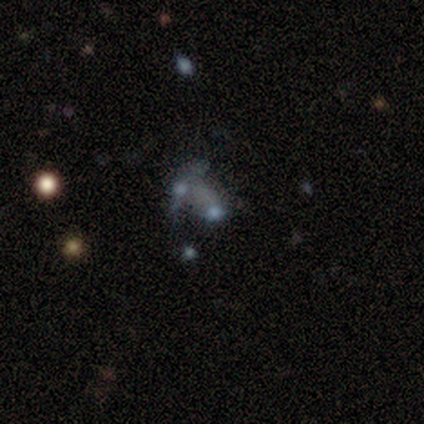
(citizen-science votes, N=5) This appears to be a smooth galaxy with no disk features (40%, tied with featured or disk) that is in between round and cigar-shaped (100%). Merging: none (50%).